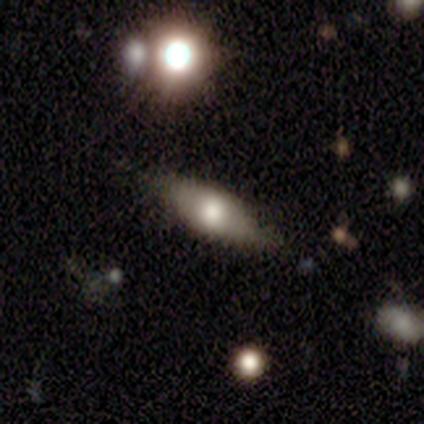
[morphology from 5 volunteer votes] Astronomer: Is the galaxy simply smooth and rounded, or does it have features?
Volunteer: smooth — 60% (runner-up: featured or disk, 40%).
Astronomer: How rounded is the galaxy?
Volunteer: in between — 100%.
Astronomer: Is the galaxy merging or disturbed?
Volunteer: none — 80%.